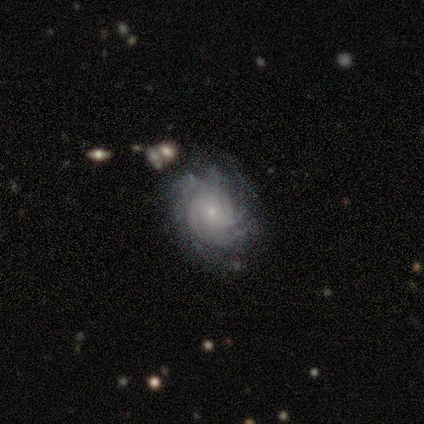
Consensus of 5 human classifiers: Smooth or featured?
  - featured or disk: 80% *
  - smooth: 20%
  - star or artifact: 0%
Edge-on disk?
  - no: 100% *
  - yes: 0%
Bar?
  - weak: 50% * (tied)
  - no: 50% * (tied)
  - strong: 0%
Spiral arms?
  - yes: 100% *
  - no: 0%
Spiral winding?
  - tight: 75% *
  - medium: 25%
  - loose: 0%
Spiral arm count?
  - 3: 50% *
  - 2: 25%
  - 4: 25%
  - 1: 0%
  - more than 4: 0%
  - can't tell: 0%
Bulge size?
  - small: 100% *
  - dominant: 0%
  - large: 0%
  - moderate: 0%
  - none: 0%
Merging?
  - none: 100% *
  - minor disturbance: 0%
  - major disturbance: 0%
  - merger: 0%